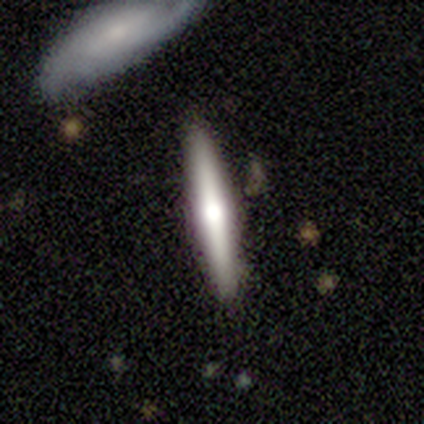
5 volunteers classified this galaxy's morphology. smooth-or-featured: smooth: 80% | featured or disk: 20% | star or artifact: 0%
  how-rounded: cigar-shaped: 100% | round: 0% | in between: 0%
  merging: none: 80% | merger: 20% | minor disturbance: 0% | major disturbance: 0%